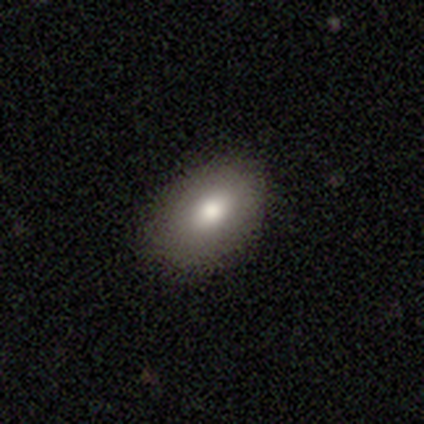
Smooth or featured? smooth (78%)
How rounded? in between (84%)
Merging? none (92%)